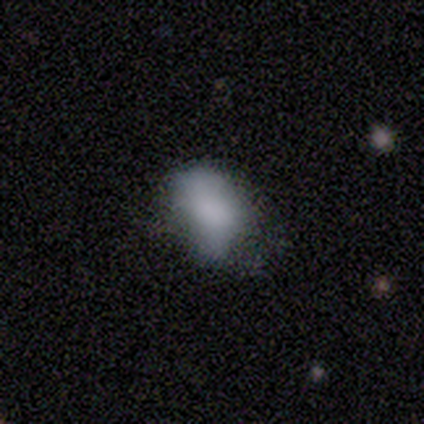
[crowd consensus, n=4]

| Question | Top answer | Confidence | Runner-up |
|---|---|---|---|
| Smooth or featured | smooth | 75% | star or artifact (25%) |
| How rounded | in between | 100% | — |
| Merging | none | 67% | major disturbance (33%) |